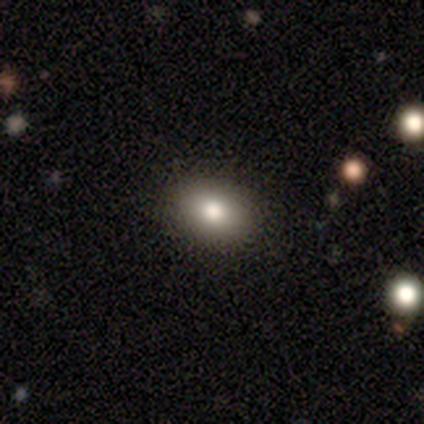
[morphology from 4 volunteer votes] Smooth or featured?
  - smooth: 50% *
  - featured or disk: 25%
  - star or artifact: 25%
How rounded?
  - round: 50% * (tied)
  - in between: 50% * (tied)
  - cigar-shaped: 0%
Merging?
  - none: 100% *
  - minor disturbance: 0%
  - major disturbance: 0%
  - merger: 0%